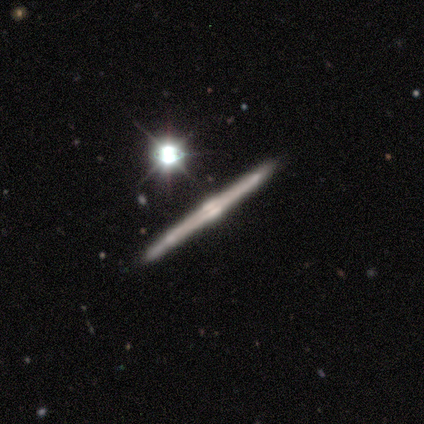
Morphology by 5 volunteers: featured or disk 60%, smooth 20%, star or artifact 20%. Down the decision tree: edge-on disk — yes (100%); edge-on bulge — boxy (67%); merging — none (100%).